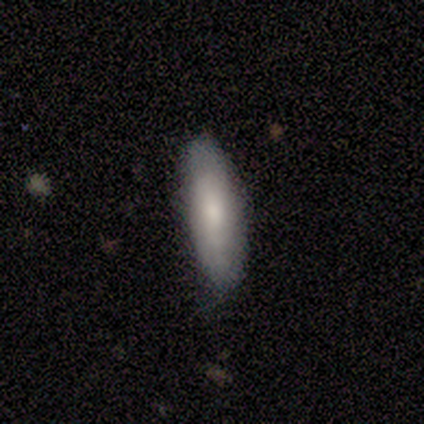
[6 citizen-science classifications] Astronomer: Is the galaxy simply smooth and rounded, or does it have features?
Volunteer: smooth — 83%.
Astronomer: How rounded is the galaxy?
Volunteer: in between — 100%.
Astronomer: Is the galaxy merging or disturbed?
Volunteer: none — 67%.